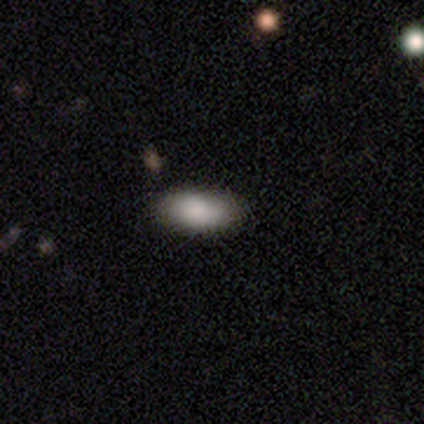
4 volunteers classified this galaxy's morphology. smooth-or-featured: smooth: 75% | featured or disk: 25% | star or artifact: 0%
  how-rounded: in between: 67% | cigar-shaped: 33% | round: 0%
  merging: none: 75% | minor disturbance: 25% | major disturbance: 0% | merger: 0%